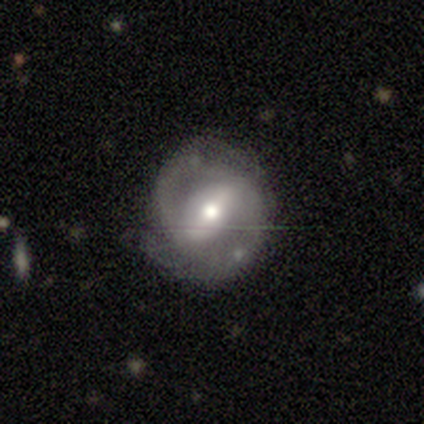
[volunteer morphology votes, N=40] Smooth or featured: featured or disk — 80% (smooth — 10%)
Edge-on disk: no — 100%
Bar: strong — 53% (weak — 34%)
Spiral arms: yes — 88% (no — 12%)
Spiral winding: medium — 43% (tight — 39%)
Spiral arm count: 2 — 71% (1 — 11%)
Bulge size: moderate — 66% (small — 28%)
Merging: none — 69% (minor disturbance — 25%)